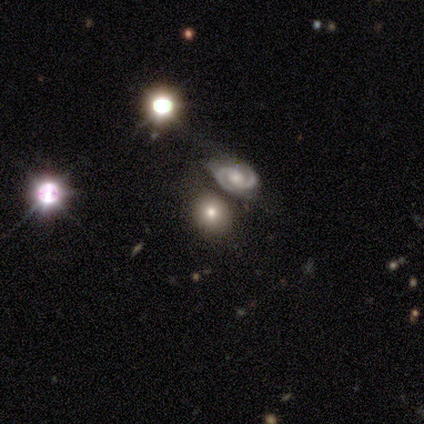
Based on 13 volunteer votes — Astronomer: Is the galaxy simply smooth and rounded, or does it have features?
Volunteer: featured or disk — 54% (runner-up: smooth, 31%).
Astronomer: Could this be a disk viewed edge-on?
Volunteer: no — 100%.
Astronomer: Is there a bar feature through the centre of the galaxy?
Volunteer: weak — 57%.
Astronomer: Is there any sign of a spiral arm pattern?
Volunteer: yes — 86%.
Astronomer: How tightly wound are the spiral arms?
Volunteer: tight — 83%.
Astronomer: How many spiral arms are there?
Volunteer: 2 — 83%.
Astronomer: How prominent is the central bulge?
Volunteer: moderate — 43% (runner-up: large, 29%).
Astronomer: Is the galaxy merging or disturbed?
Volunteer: none — 55%.